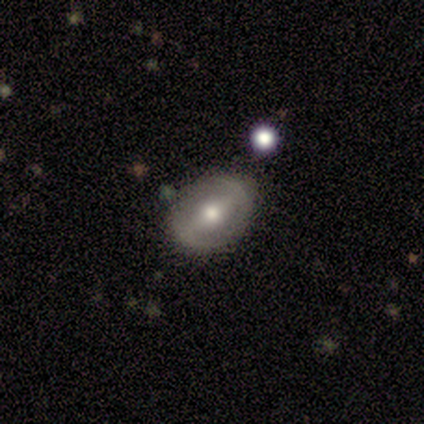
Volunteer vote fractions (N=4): A smooth galaxy with no disk features (50%, tied with featured or disk) that is round (50%, tied with in between). Merging: none (100%).